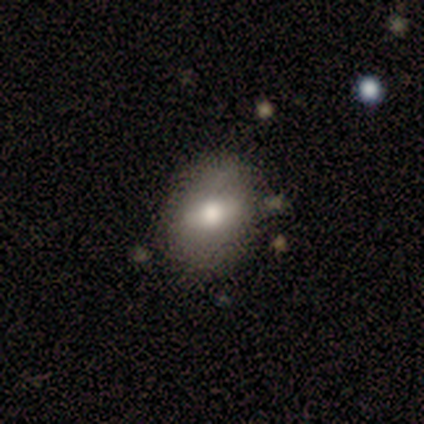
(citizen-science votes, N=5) Q: Smooth or featured?
A: smooth (60%); runner-up: featured or disk (40%)
Q: How rounded?
A: round (67%); runner-up: in between (33%)
Q: Merging?
A: none (60%); runner-up: minor disturbance (20%)